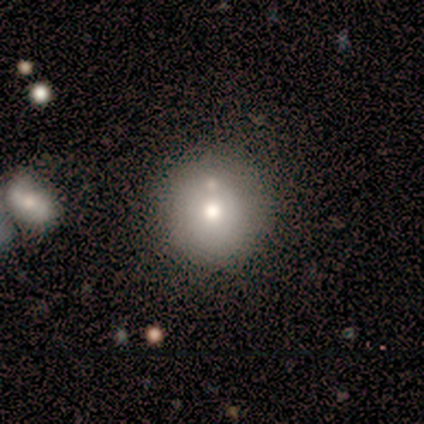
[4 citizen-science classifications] A smooth galaxy with no disk features (75%) that is round (100%). Merging: none (100%).